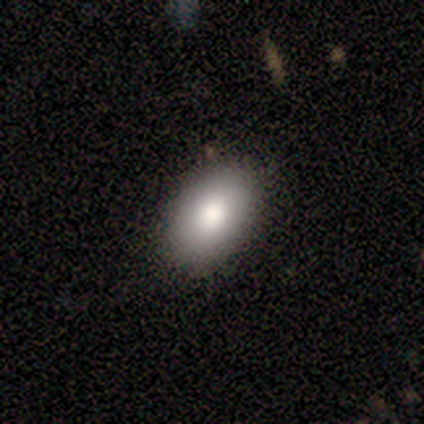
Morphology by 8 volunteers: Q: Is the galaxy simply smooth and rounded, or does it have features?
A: smooth — 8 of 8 (100%).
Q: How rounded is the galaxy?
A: in between — 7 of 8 (88%).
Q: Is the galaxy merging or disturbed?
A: none — 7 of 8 (88%).